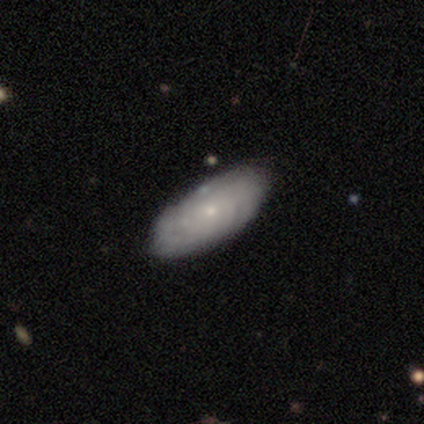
A featured or disk galaxy (59%) with no bar (86%), tight (81%) spiral arms (76%) and a small central bulge (81%).

Vote fractions:
- Smooth or featured? featured or disk: 59% / smooth: 38% / star or artifact: 3%
- Edge-on disk? no: 91% / yes: 9%
- Bar? no: 86% / weak: 10% / strong: 5%
- Spiral arms? yes: 76% / no: 24%
- Spiral winding? tight: 81% / medium: 12% / loose: 6%
- Spiral arm count? can't tell: 69% / 1: 6% / 2: 6% / 3: 6% / 4: 6% / more than 4: 6%
- Bulge size? small: 81% / moderate: 10% / dominant: 5% / none: 5% / large: 0%
- Merging? none: 89% / minor disturbance: 11% / major disturbance: 0% / merger: 0%